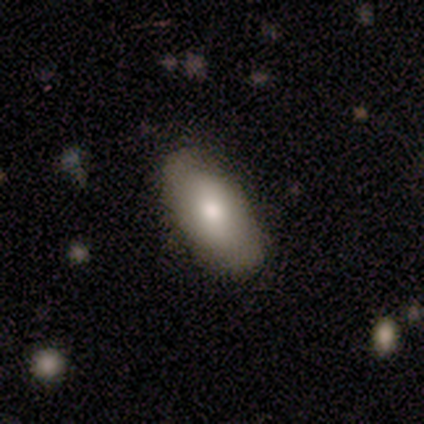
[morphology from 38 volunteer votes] A smooth galaxy with no disk features (76%) that is in between round and cigar-shaped (90%). Merging: none (70%).